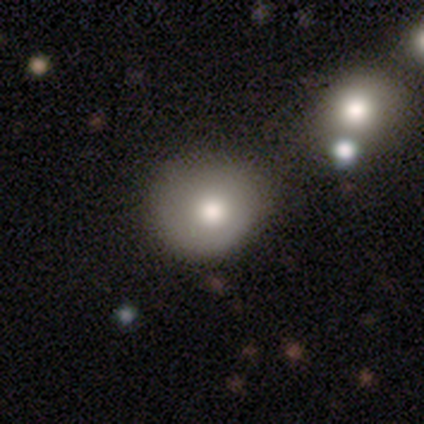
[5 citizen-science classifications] Morphology: type=smooth (100%); roundness=round (100%); merging=none (80%).